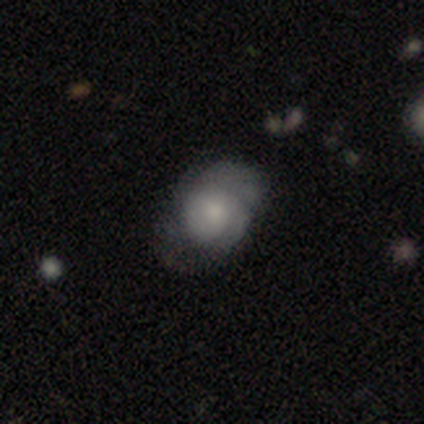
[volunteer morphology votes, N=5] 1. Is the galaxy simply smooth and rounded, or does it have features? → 60% smooth, 40% featured or disk, 0% star or artifact.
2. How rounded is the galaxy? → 67% round, 33% in between, 0% cigar-shaped.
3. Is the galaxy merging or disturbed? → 60% none, 20% minor disturbance, 20% major disturbance, 0% merger.